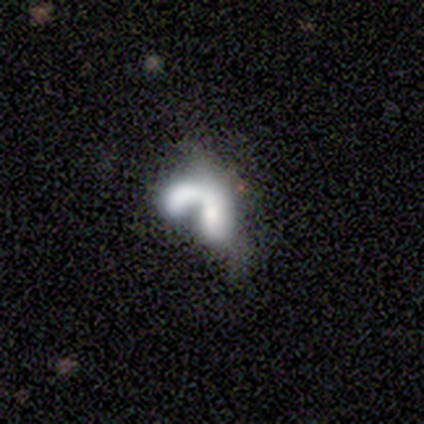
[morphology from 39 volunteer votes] This is possibly a smooth galaxy (54%). How rounded: clearly in between (81%). Merging: likely merger (79%).